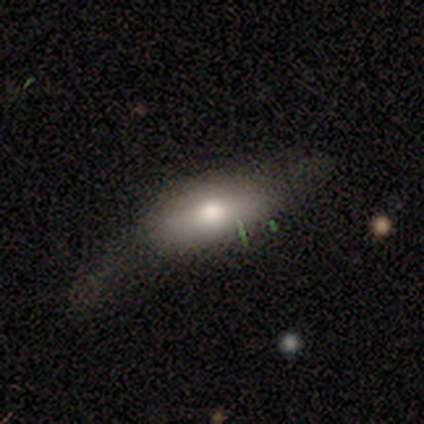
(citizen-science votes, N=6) Smooth or featured? smooth (67%)
How rounded? in between (100%)
Merging? none (50%)